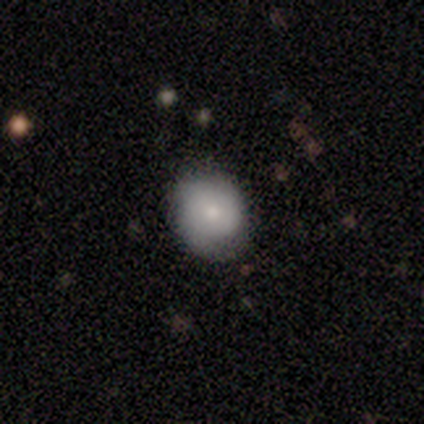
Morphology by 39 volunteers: Smooth or featured? smooth (74%)
How rounded? round (72%)
Merging? none (73%)